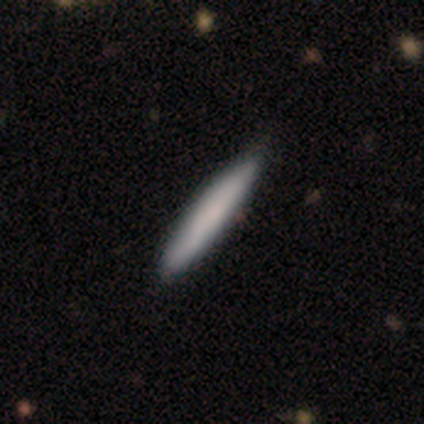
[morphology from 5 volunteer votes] A smooth galaxy with no disk features (80%) that is cigar-shaped (100%). Merging: none (100%).